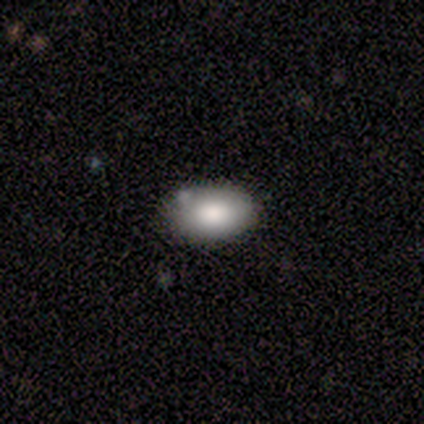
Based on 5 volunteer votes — Smooth or featured? smooth (80%)
How rounded? in between (100%)
Merging? none (50%, tied with minor disturbance)